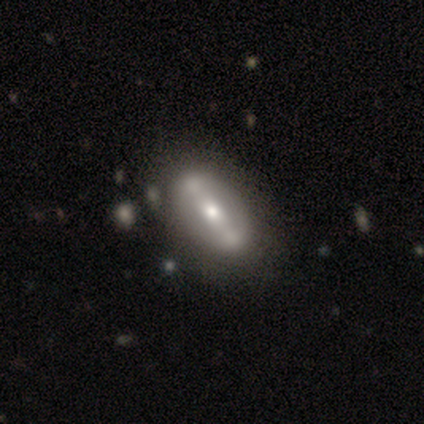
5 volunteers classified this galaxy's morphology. This appears to be a featured or disk galaxy (100%) with a strong bar (80%), no spiral arms (60%) and a moderate central bulge (40%, tied with small). Merging: none (80%).